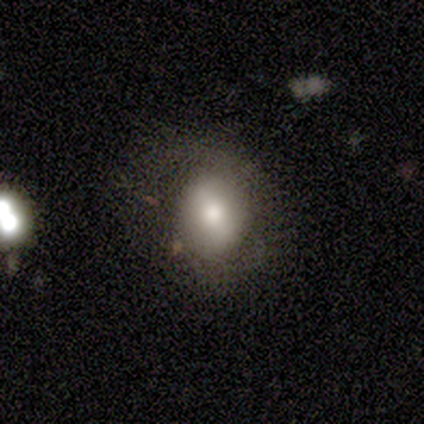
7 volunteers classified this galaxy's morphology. smooth_or_featured: smooth (p=0.71) [alt: featured or disk p=0.29]
how_rounded: in between (p=0.60) [alt: round p=0.40]
merging: none (p=0.57) [alt: major disturbance p=0.29]